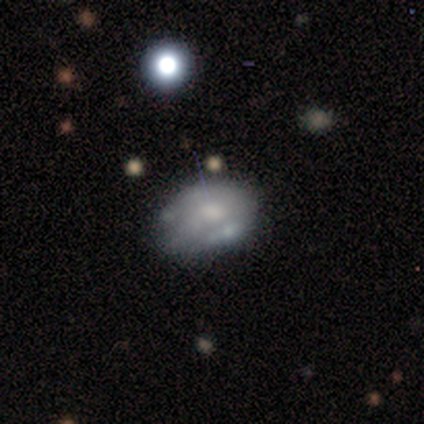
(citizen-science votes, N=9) Smooth or featured?
  - featured or disk: 78% *
  - smooth: 22%
  - star or artifact: 0%
Edge-on disk?
  - no: 100% *
  - yes: 0%
Bar?
  - no: 100% *
  - strong: 0%
  - weak: 0%
Spiral arms?
  - no: 57% *
  - yes: 43%
Bulge size?
  - moderate: 71% *
  - small: 29%
  - dominant: 0%
  - large: 0%
  - none: 0%
Merging?
  - none: 44% *
  - major disturbance: 22%
  - merger: 22%
  - minor disturbance: 11%